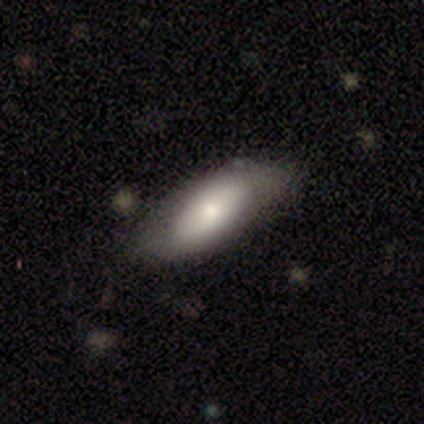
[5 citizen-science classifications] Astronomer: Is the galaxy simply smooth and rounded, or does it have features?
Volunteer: smooth — 60% (runner-up: featured or disk, 40%).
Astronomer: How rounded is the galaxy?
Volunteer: in between — 100%.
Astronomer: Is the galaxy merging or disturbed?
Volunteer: minor disturbance — 60% (runner-up: none, 40%).